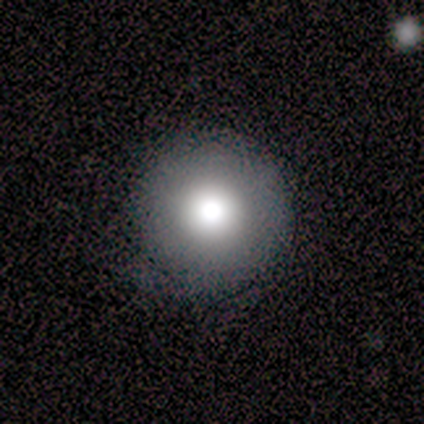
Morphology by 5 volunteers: Overall: smooth (60%; featured or disk 20%). How rounded: round (100%). Merging: none (75%).